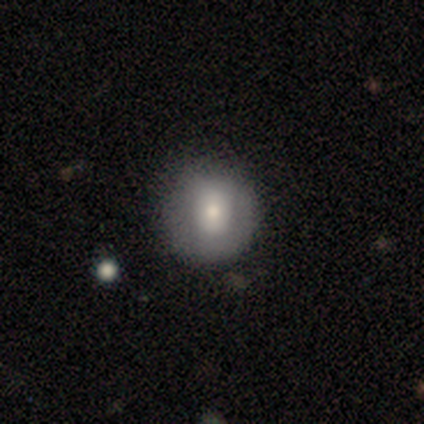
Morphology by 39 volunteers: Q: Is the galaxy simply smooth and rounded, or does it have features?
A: smooth — 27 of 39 (69%).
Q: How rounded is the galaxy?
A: round — 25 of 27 (93%).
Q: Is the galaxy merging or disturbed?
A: none — 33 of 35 (94%).